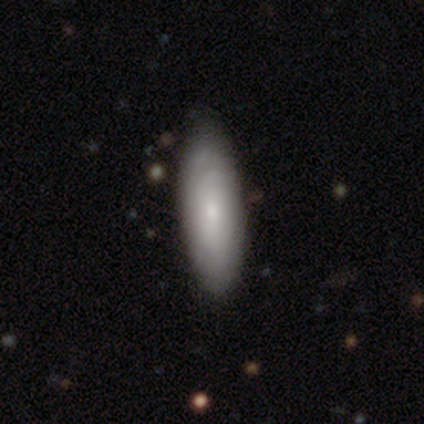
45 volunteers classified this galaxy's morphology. type=featured or disk (58%); edge-on=yes (62%); edge-on bulge=rounded (94%); merging=none (51%).